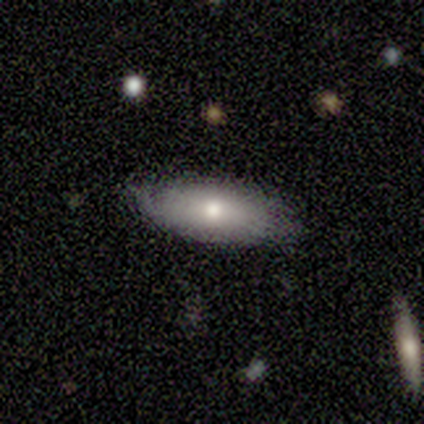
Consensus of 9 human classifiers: Smooth or featured: smooth — 44% (featured or disk — 33%)
How rounded: in between — 100%
Merging: none — 71% (minor disturbance — 29%)